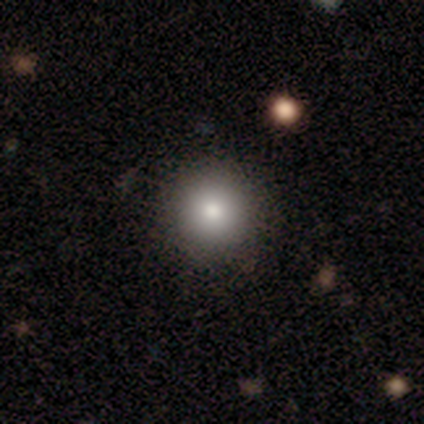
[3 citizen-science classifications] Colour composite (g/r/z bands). It shows a smooth galaxy with no disk features (100%) that is round (100%). Merging: none (100%).